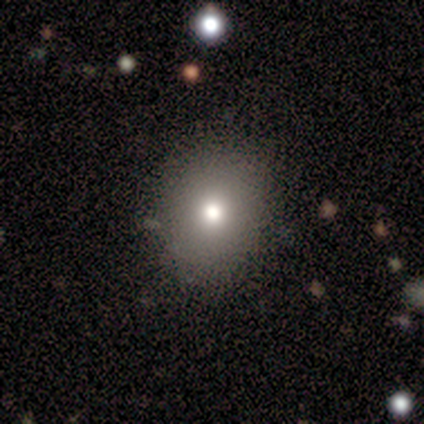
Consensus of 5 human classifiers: This is likely a smooth galaxy (60%). How rounded: likely round (67%). Merging: clearly none (100%).